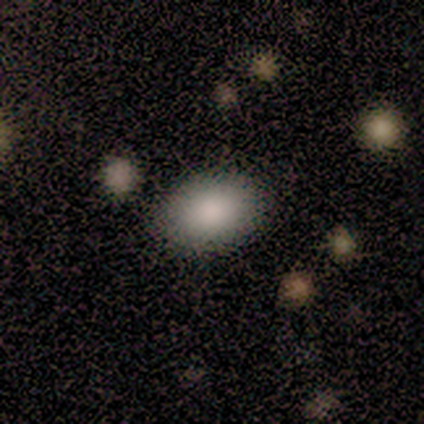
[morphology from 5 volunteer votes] smooth-or-featured: smooth: 100% | featured or disk: 0% | star or artifact: 0%
  how-rounded: in between: 100% | round: 0% | cigar-shaped: 0%
  merging: none: 80% | minor disturbance: 20% | major disturbance: 0% | merger: 0%